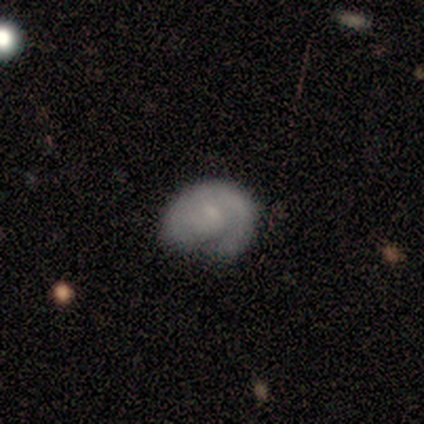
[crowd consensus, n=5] smooth-or-featured: featured or disk: 60% | smooth: 40% | star or artifact: 0%
  disk-edge-on: no: 100% | yes: 0%
    bar: no: 67% | weak: 33% | strong: 0%
    has-spiral-arms: yes: 100% | no: 0%
      spiral-winding: tight: 33% (tied) | medium: 33% (tied) | loose: 33% (tied)
      spiral-arm-count: 1: 67% | can't tell: 33% | 2: 0% | 3: 0% | 4: 0% | more than 4: 0%
    bulge-size: small: 100% | dominant: 0% | large: 0% | moderate: 0% | none: 0%
  merging: none: 40% (tied) | minor disturbance: 40% (tied) | major disturbance: 20% | merger: 0%